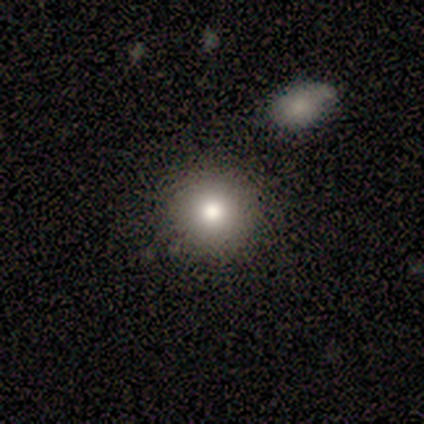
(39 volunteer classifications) Smooth or featured?
  - smooth: 82% *
  - featured or disk: 13%
  - star or artifact: 5%
How rounded?
  - round: 81% *
  - in between: 19%
  - cigar-shaped: 0%
Merging?
  - none: 81% *
  - minor disturbance: 11%
  - merger: 5%
  - major disturbance: 3%